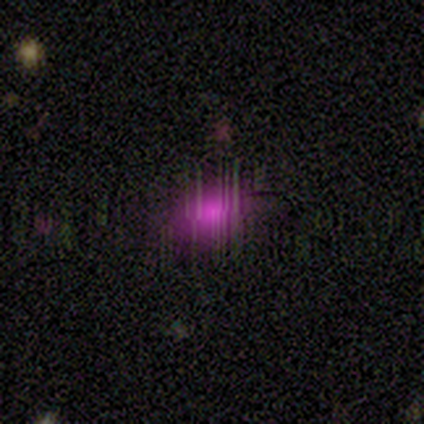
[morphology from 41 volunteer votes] star or artifact 56%, smooth 34%, featured or disk 10%.